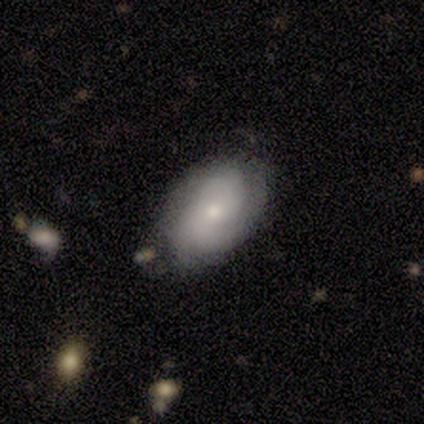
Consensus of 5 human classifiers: Smooth or featured?
  - featured or disk: 60% *
  - smooth: 40%
  - star or artifact: 0%
Edge-on disk?
  - no: 100% *
  - yes: 0%
Bar?
  - no: 67% *
  - strong: 33%
  - weak: 0%
Spiral arms?
  - yes: 67% *
  - no: 33%
Spiral winding?
  - loose: 100% *
  - tight: 0%
  - medium: 0%
Spiral arm count?
  - 2: 100% *
  - 1: 0%
  - 3: 0%
  - 4: 0%
  - more than 4: 0%
  - can't tell: 0%
Bulge size?
  - small: 100% *
  - dominant: 0%
  - large: 0%
  - moderate: 0%
  - none: 0%
Merging?
  - none: 60% *
  - minor disturbance: 20%
  - major disturbance: 20%
  - merger: 0%